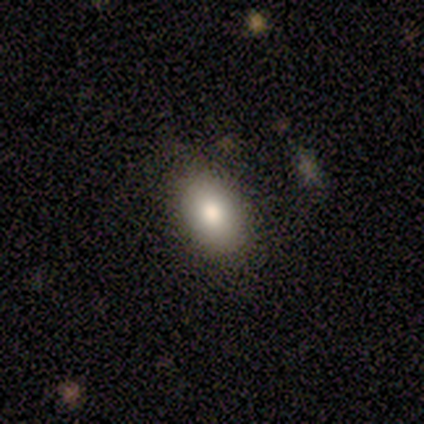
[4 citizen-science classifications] A smooth galaxy with no disk features (100%) that is in between round and cigar-shaped (75%).

Vote fractions:
- Smooth or featured? smooth: 100% / featured or disk: 0% / star or artifact: 0%
- How rounded? in between: 75% / round: 25% / cigar-shaped: 0%
- Merging? none: 100% / minor disturbance: 0% / major disturbance: 0% / merger: 0%